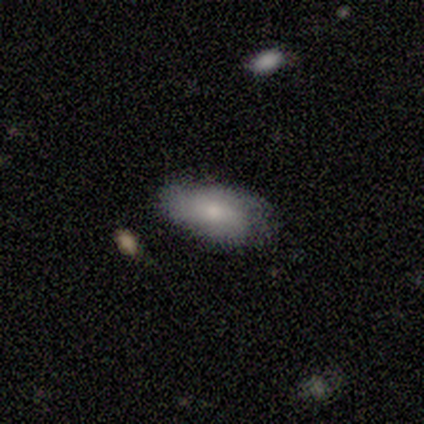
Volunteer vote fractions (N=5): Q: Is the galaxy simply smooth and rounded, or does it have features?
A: smooth — 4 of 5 (80%).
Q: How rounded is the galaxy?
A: in between — 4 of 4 (100%).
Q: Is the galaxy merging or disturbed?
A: none — 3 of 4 (75%).